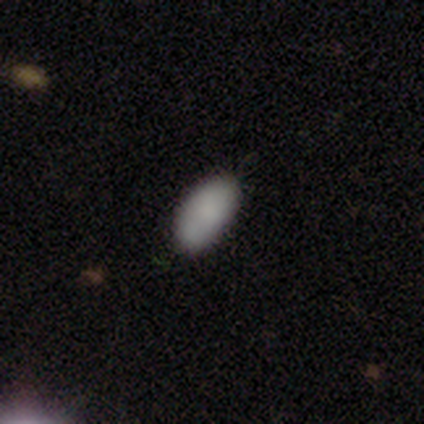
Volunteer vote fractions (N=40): This is clearly a smooth galaxy (82%). How rounded: clearly in between (88%). Merging: clearly none (86%).